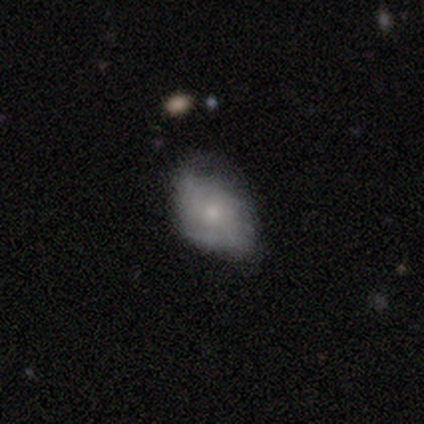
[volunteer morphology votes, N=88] Volunteers were most divided on "spiral arms": no: 52%, yes: 48%. More confident: edge-on disk — no (100%); bar — no (89%); bulge size — small (67%); merging — none (56%); smooth or featured — featured or disk (52%).